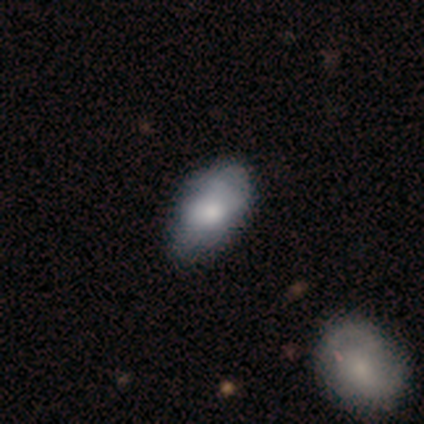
Smooth or featured? featured or disk (80%)
Edge-on disk? no (100%)
Bar? no (75%)
Spiral arms? no (75%)
Bulge size? moderate (75%)
Merging? minor disturbance (60%)